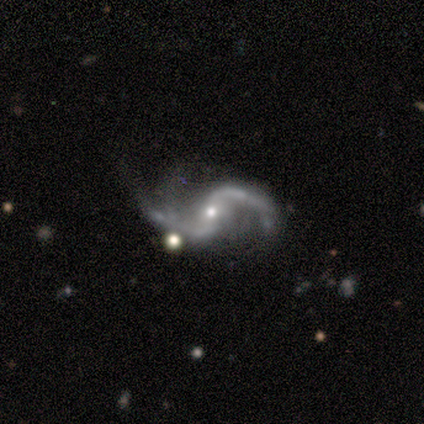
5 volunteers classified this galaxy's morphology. Smooth or featured?
  - featured or disk: 100% *
  - smooth: 0%
  - star or artifact: 0%
Edge-on disk?
  - no: 100% *
  - yes: 0%
Bar?
  - weak: 60% *
  - strong: 20%
  - no: 20%
Spiral arms?
  - yes: 100% *
  - no: 0%
Spiral winding?
  - loose: 60% *
  - medium: 40%
  - tight: 0%
Spiral arm count?
  - 2: 100% *
  - 1: 0%
  - 3: 0%
  - 4: 0%
  - more than 4: 0%
  - can't tell: 0%
Bulge size?
  - moderate: 40% *
  - large: 20%
  - small: 20%
  - none: 20%
  - dominant: 0%
Merging?
  - major disturbance: 60% *
  - none: 40%
  - minor disturbance: 0%
  - merger: 0%